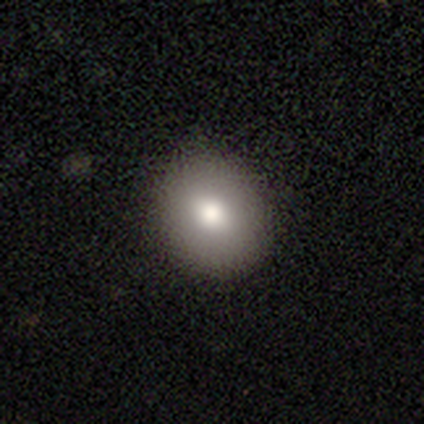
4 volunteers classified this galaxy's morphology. Q: Smooth or featured?
A: smooth (100%)
Q: How rounded?
A: round (100%)
Q: Merging?
A: none (100%)